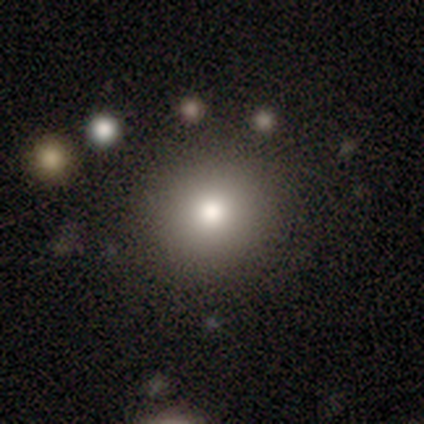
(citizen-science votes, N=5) smooth-or-featured: smooth: 60% | featured or disk: 20% | star or artifact: 20%
  how-rounded: in between: 67% | round: 33% | cigar-shaped: 0%
  merging: none: 50% | minor disturbance: 25% | merger: 25% | major disturbance: 0%